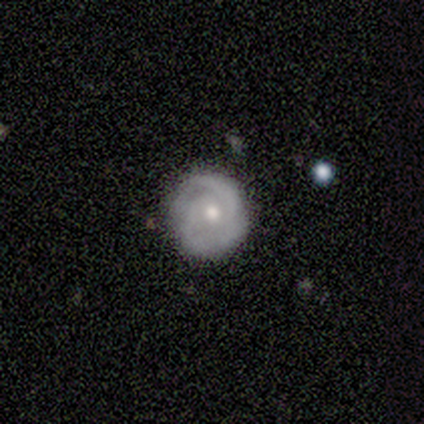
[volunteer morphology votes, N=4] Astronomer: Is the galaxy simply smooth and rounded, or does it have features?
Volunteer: featured or disk — 100%.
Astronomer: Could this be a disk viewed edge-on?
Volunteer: no — 100%.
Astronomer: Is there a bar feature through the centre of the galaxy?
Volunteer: no — 75%.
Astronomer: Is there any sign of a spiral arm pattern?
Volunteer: yes — 75%.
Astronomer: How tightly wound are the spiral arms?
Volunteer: tight — 67%.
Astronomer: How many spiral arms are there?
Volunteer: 2 — 67%.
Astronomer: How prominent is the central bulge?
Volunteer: moderate — 75%.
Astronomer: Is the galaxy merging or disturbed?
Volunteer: none — 100%.